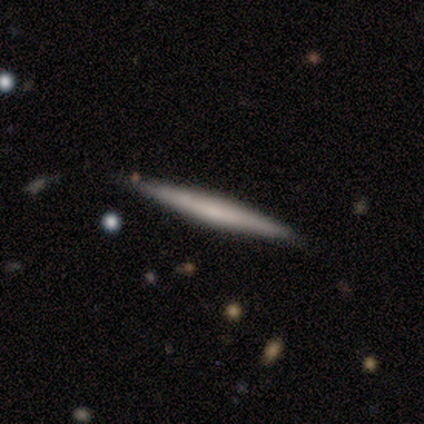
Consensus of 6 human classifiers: smooth-or-featured: featured or disk: 83% | smooth: 17% | star or artifact: 0%
  disk-edge-on: yes: 100% | no: 0%
    edge-on-bulge: none: 100% | boxy: 0% | rounded: 0%
  merging: none: 83% | merger: 17% | minor disturbance: 0% | major disturbance: 0%